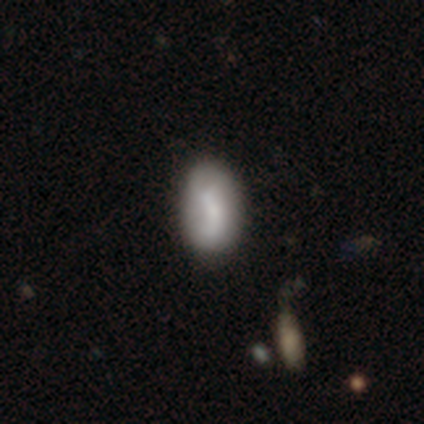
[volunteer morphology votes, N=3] smooth-or-featured: smooth: 100% | featured or disk: 0% | star or artifact: 0%
  how-rounded: in between: 67% | round: 33% | cigar-shaped: 0%
  merging: none: 100% | minor disturbance: 0% | major disturbance: 0% | merger: 0%